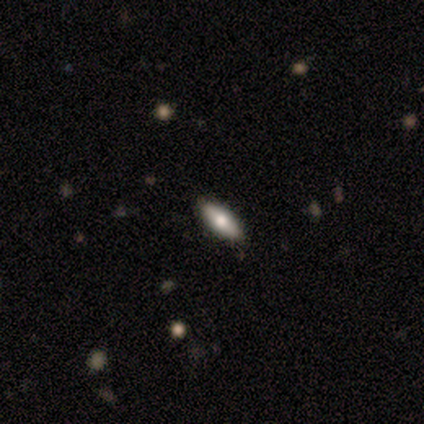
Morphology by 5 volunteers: A smooth galaxy with no disk features (80%) that is in between round and cigar-shaped (50%, tied with cigar-shaped).

Vote fractions:
- Smooth or featured? smooth: 80% / featured or disk: 20% / star or artifact: 0%
- How rounded? in between: 50% (tied) / cigar-shaped: 50% (tied) / round: 0%
- Merging? none: 100% / minor disturbance: 0% / major disturbance: 0% / merger: 0%